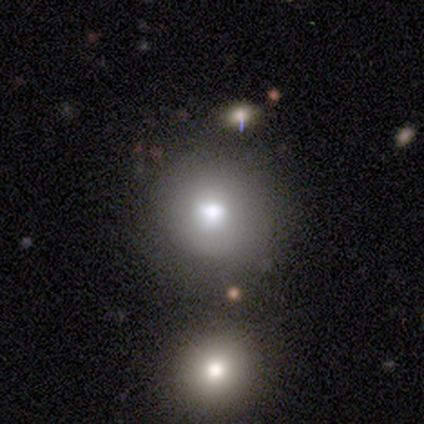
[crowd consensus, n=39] This appears to be a smooth galaxy with no disk features (82%) that is round (94%). Merging: none (72%).